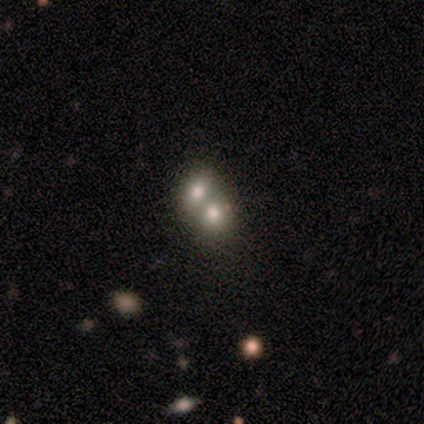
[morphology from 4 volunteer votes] This appears to be a featured or disk galaxy (75%) with no bar (100%), no spiral arms (100%) and a large central bulge (33%, tied with moderate and small). Merging: merger (100%).